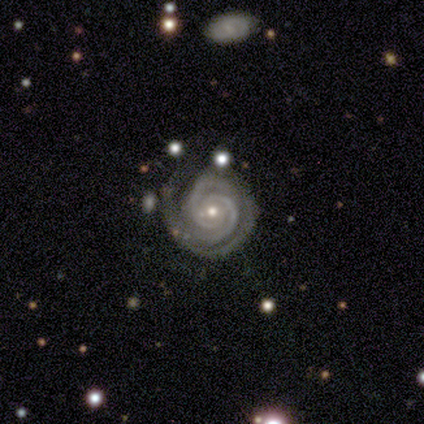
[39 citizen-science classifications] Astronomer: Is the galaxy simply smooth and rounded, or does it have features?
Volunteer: featured or disk — 90%.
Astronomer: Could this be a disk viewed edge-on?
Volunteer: no — 100%.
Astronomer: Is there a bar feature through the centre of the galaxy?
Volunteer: no — 66%.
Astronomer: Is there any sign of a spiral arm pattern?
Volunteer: yes — 100%.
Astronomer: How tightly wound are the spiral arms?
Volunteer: tight — 89%.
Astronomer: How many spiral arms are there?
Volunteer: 2 — 57%.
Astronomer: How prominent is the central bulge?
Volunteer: small — 60%.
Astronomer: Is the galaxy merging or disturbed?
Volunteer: none — 89%.